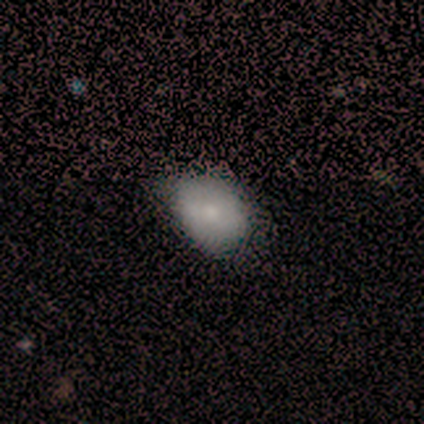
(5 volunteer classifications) Overall: smooth (80%). How rounded: round (50%, tied with in between). Merging: minor disturbance (75%).